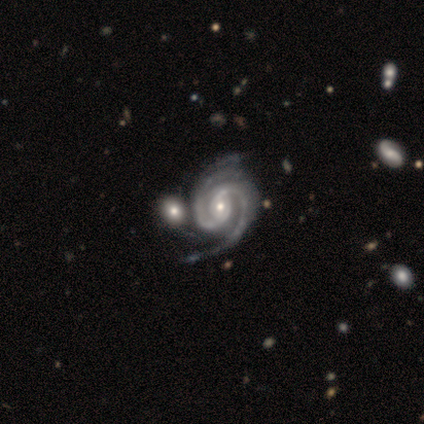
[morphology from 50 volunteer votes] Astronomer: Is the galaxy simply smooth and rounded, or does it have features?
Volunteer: featured or disk — 88%.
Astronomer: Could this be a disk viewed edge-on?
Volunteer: no — 98%.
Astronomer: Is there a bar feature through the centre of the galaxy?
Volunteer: no — 40% (runner-up: weak, 37%).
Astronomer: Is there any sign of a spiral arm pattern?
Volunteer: yes — 100%.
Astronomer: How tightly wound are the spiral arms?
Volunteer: medium — 56% (runner-up: tight, 37%).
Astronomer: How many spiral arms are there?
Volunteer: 2 — 74%.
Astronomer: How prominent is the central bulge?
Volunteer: small — 56% (runner-up: moderate, 42%).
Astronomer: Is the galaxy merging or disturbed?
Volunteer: none — 33% (runner-up: minor disturbance, 27%).